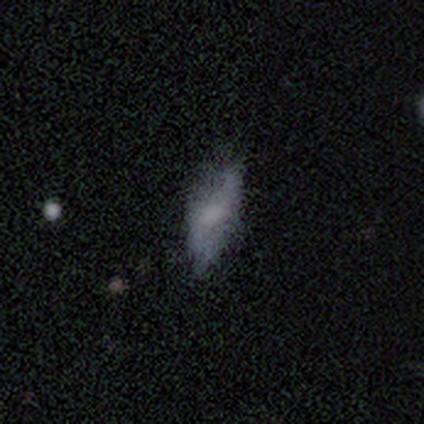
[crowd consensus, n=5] Q: Smooth or featured?
A: smooth (60%); runner-up: featured or disk (20%)
Q: How rounded?
A: in between (67%); runner-up: cigar-shaped (33%)
Q: Merging?
A: none (50%); tied with: minor disturbance (50%)